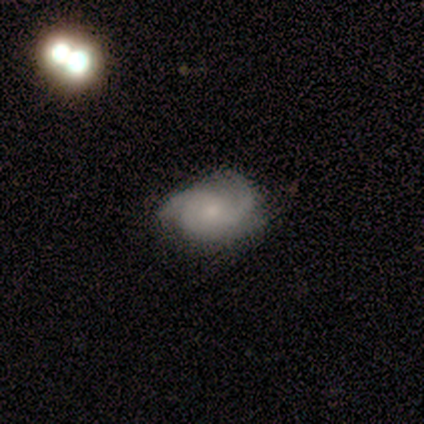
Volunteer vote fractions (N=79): Smooth or featured?
  - featured or disk: 75% *
  - smooth: 19%
  - star or artifact: 6%
Edge-on disk?
  - no: 98% *
  - yes: 2%
Bar?
  - no: 79% *
  - weak: 19%
  - strong: 2%
Spiral arms?
  - yes: 100% *
  - no: 0%
Spiral winding?
  - medium: 52% *
  - tight: 40%
  - loose: 9%
Spiral arm count?
  - 3: 62% *
  - 2: 22%
  - can't tell: 12%
  - 4: 3%
  - 1: 0%
  - more than 4: 0%
Bulge size?
  - small: 52% *
  - moderate: 34%
  - none: 12%
  - large: 2%
  - dominant: 0%
Merging?
  - none: 70% *
  - minor disturbance: 23%
  - major disturbance: 4%
  - merger: 3%